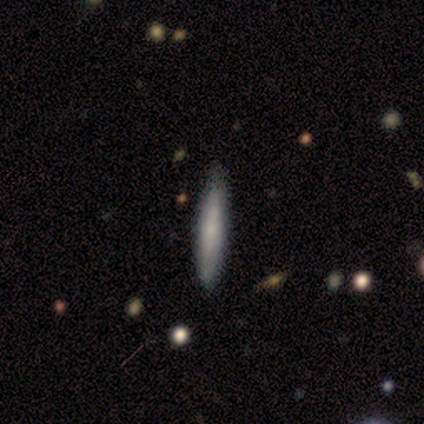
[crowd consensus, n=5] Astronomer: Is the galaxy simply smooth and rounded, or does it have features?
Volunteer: smooth — 80%.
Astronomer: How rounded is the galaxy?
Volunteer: cigar-shaped — 100%.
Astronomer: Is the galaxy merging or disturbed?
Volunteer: none — 80%.